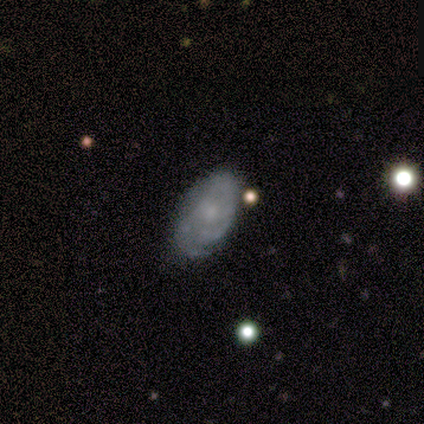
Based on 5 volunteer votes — smooth 60%, featured or disk 40%, star or artifact 0%. Down the decision tree: how rounded — in between (67%); merging — none (80%).